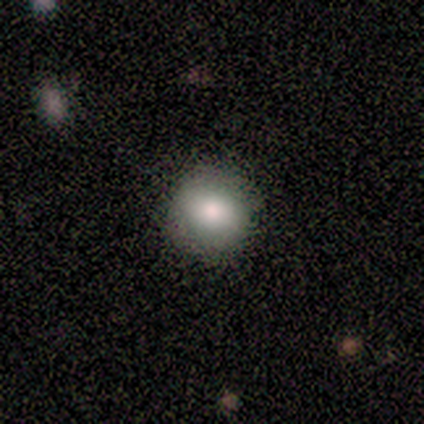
Volunteers were most divided on "how rounded": round: 83%, cigar-shaped: 17%, in between: 0%. More confident: smooth or featured — smooth (100%); merging — none (83%).